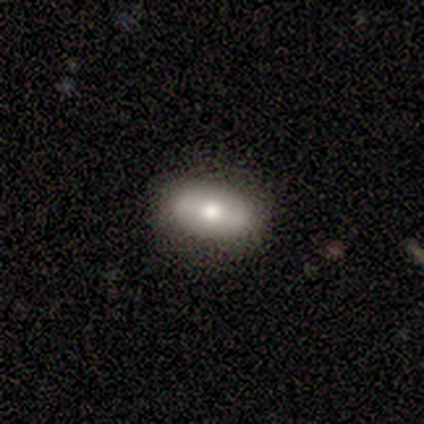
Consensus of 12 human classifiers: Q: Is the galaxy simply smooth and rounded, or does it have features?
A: smooth — 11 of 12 (92%).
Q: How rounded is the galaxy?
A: in between — 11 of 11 (100%).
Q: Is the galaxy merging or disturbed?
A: none — 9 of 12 (75%).